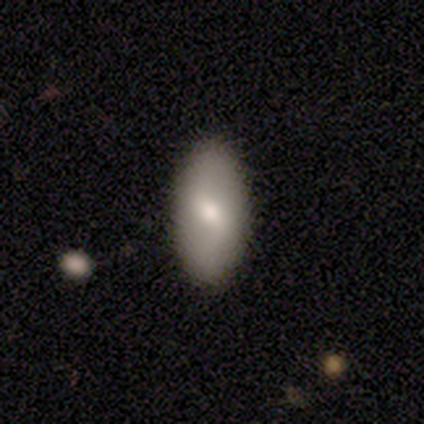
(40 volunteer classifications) This appears to be a smooth galaxy with no disk features (72%) that is in between round and cigar-shaped (79%). Merging: none (69%).